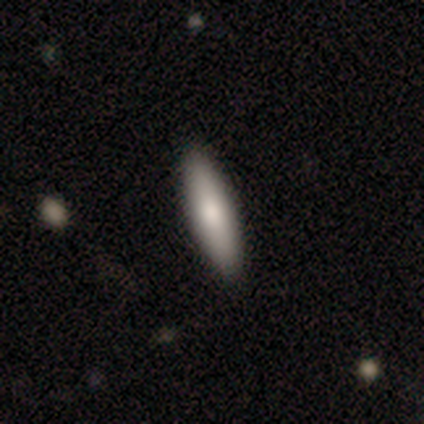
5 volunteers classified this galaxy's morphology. This is clearly a smooth galaxy (100%). How rounded: clearly cigar-shaped (100%). Merging: clearly none (80%).